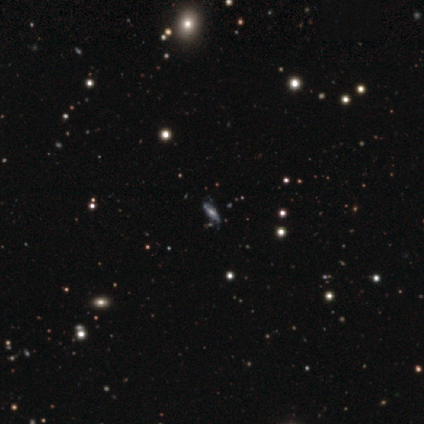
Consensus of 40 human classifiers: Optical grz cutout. It shows a featured or disk galaxy (57%) with a weak bar (40%, tied with no), loose (58%) spiral arms (80%) and a small central bulge (40%). Merging: none (86%).